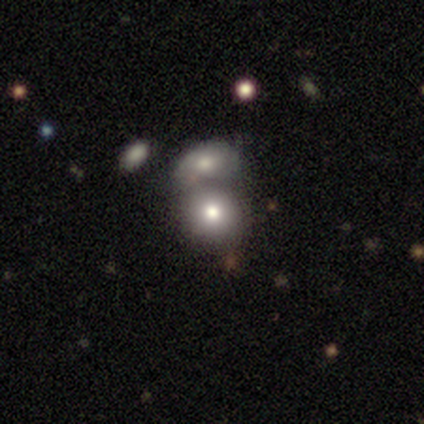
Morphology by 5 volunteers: Smooth or featured?
  - smooth: 60% *
  - featured or disk: 20%
  - star or artifact: 20%
How rounded?
  - round: 100% *
  - in between: 0%
  - cigar-shaped: 0%
Merging?
  - merger: 75% *
  - none: 25%
  - minor disturbance: 0%
  - major disturbance: 0%